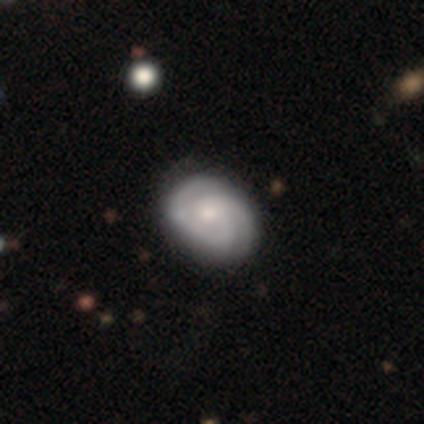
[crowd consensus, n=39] smooth_or_featured: featured or disk (p=0.74) [alt: smooth p=0.26]
disk_edge_on: no (p=1.00)
bar: no (p=0.72) [alt: weak p=0.28]
has_spiral_arms: yes (p=0.93) [alt: no p=0.07]
spiral_winding: tight (p=0.59) [alt: medium p=0.30]
spiral_arm_count: 2 (p=0.63) [alt: can't tell p=0.26]
bulge_size: small (p=0.41) [alt: moderate p=0.38]
merging: none (p=0.49) [alt: minor disturbance p=0.10]